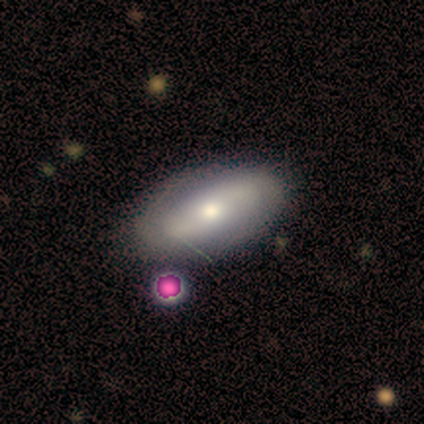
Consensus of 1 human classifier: This is clearly a featured or disk galaxy (100%). It is clearly not viewed edge-on (100%). Bar: clearly no (100%). Spiral arm pattern: clearly yes (100%). Spiral arm count: clearly 2 (100%). Spiral winding: clearly medium (100%). Central bulge: clearly small (100%). Merging: clearly none (100%).